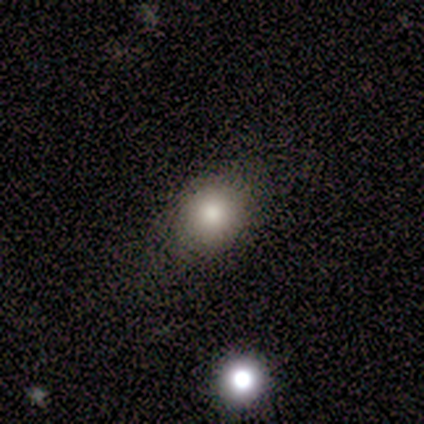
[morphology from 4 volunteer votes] A smooth galaxy with no disk features (100%) that is round (50%, tied with in between).

Vote fractions:
- Smooth or featured? smooth: 100% / featured or disk: 0% / star or artifact: 0%
- How rounded? round: 50% (tied) / in between: 50% (tied) / cigar-shaped: 0%
- Merging? none: 75% / minor disturbance: 25% / major disturbance: 0% / merger: 0%